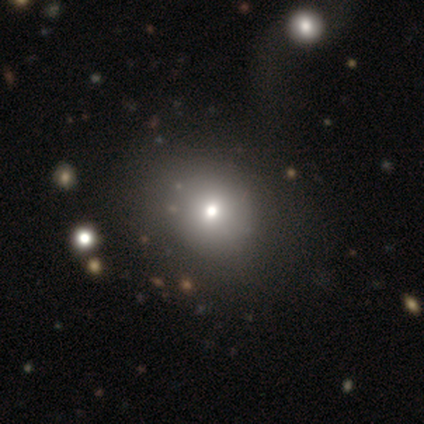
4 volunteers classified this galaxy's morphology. A smooth galaxy with no disk features (75%) that is round (100%).

Vote fractions:
- Smooth or featured? smooth: 75% / featured or disk: 25% / star or artifact: 0%
- How rounded? round: 100% / in between: 0% / cigar-shaped: 0%
- Merging? none: 100% / minor disturbance: 0% / major disturbance: 0% / merger: 0%